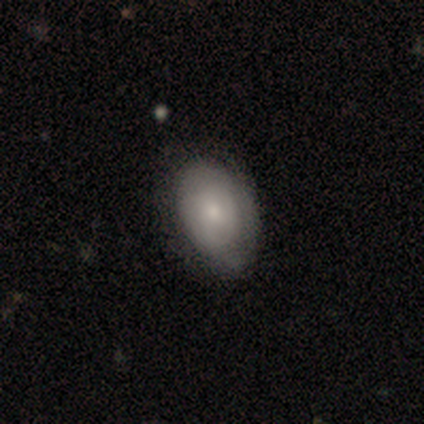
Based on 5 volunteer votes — Smooth or featured?
  - smooth: 80% *
  - featured or disk: 20%
  - star or artifact: 0%
How rounded?
  - in between: 100% *
  - round: 0%
  - cigar-shaped: 0%
Merging?
  - none: 60% *
  - minor disturbance: 40%
  - major disturbance: 0%
  - merger: 0%